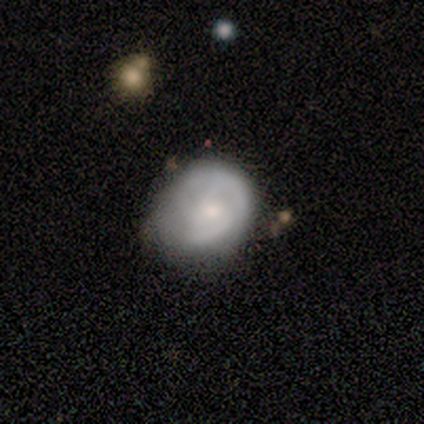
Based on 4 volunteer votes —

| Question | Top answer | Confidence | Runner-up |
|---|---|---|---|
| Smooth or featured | smooth | 50% | tied: featured or disk (50%) |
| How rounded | round | 50% | tied: in between (50%) |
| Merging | none | 100% | — |